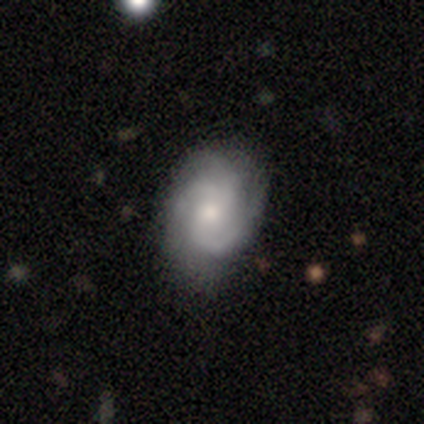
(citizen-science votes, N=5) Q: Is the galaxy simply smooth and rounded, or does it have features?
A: featured or disk — 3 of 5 (60%).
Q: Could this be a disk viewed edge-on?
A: no — 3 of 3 (100%).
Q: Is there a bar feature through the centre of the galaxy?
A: weak — 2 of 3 (67%).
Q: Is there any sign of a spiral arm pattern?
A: yes — 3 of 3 (100%).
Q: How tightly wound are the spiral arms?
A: medium — 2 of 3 (67%).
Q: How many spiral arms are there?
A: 2 — 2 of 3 (67%).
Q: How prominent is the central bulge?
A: small — 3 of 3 (100%).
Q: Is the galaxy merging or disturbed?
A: none — 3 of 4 (75%).